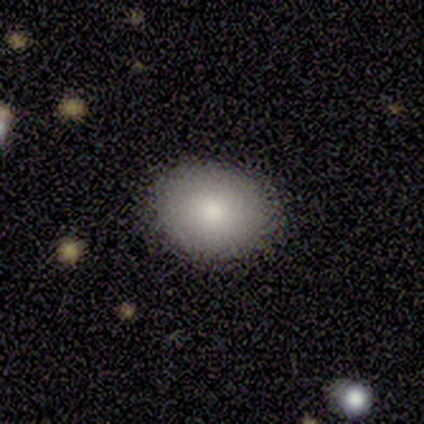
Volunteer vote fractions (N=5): smooth_or_featured: smooth (p=1.00)
how_rounded: round (p=0.60) [alt: in between p=0.40]
merging: none (p=0.80) [alt: minor disturbance p=0.20]